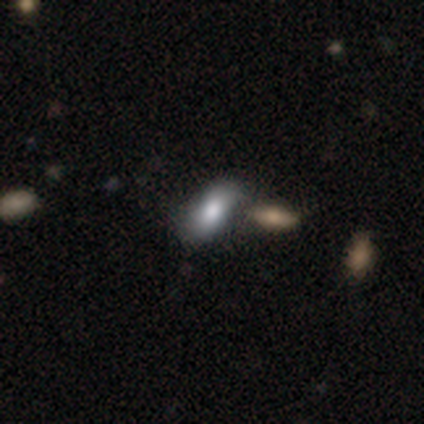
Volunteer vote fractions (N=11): Overall: smooth (82%). How rounded: in between (89%). Merging: none (55%; minor disturbance 27%).